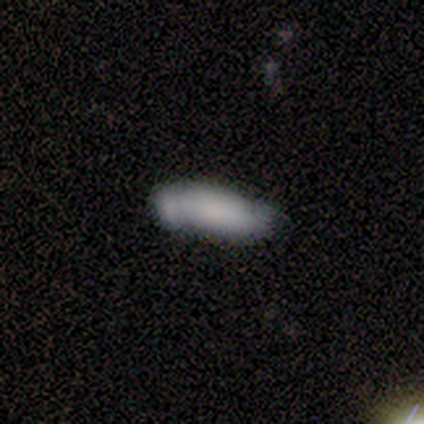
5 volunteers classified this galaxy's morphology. Smooth or featured? 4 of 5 (80%) said smooth. How rounded? 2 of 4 (50%, tied with cigar-shaped) said in between. Merging? 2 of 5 (40%, tied with major disturbance) said none.